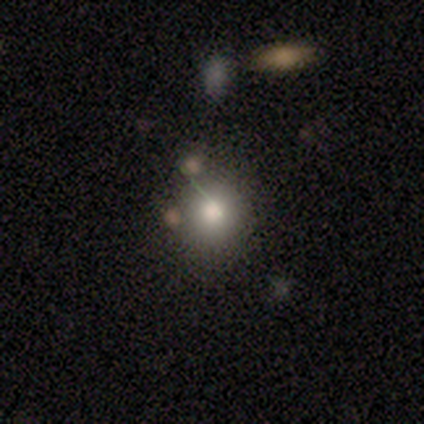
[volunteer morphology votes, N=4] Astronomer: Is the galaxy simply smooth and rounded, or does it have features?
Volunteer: smooth — 75%.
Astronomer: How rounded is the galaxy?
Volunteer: round — 100%.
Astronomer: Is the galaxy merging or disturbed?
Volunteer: none — 50%.